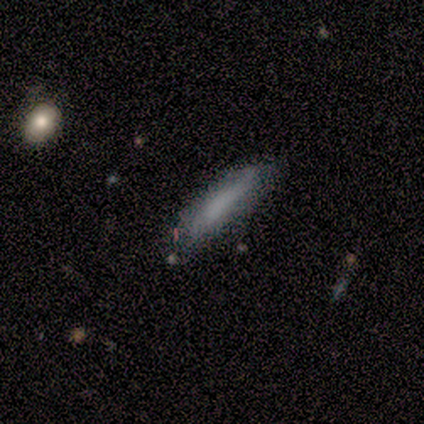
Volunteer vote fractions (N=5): Overall: smooth (100%). How rounded: cigar-shaped (80%). Merging: none (60%; minor disturbance 40%).